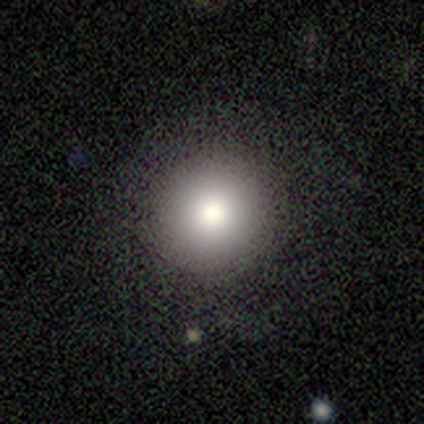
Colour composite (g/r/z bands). It shows a smooth galaxy with no disk features (100%) that is round (100%). Merging: none (100%).